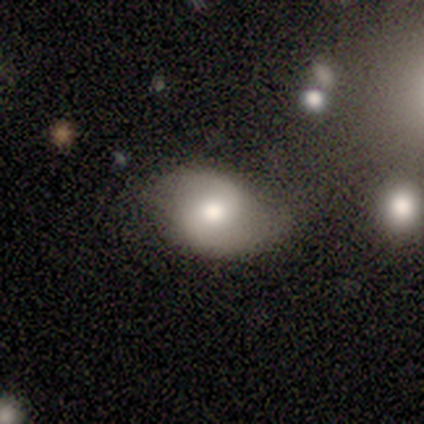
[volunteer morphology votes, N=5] A smooth galaxy with no disk features (60%) that is in between round and cigar-shaped (100%).

Vote fractions:
- Smooth or featured? smooth: 60% / featured or disk: 20% / star or artifact: 20%
- How rounded? in between: 100% / round: 0% / cigar-shaped: 0%
- Merging? minor disturbance: 50% / none: 25% / major disturbance: 25% / merger: 0%